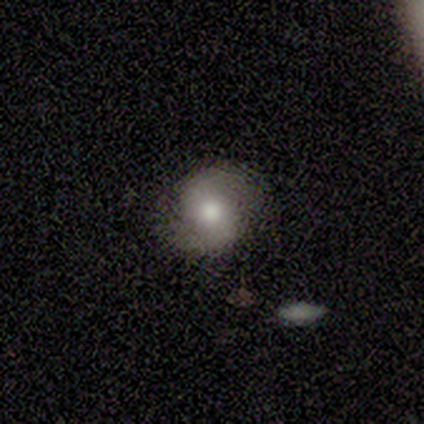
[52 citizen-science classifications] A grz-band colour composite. It shows a featured or disk galaxy (60%) with no bar (58%), 2 (96%) medium (38%) spiral arms (84%) and a moderate central bulge (68%). Merging: none (76%).